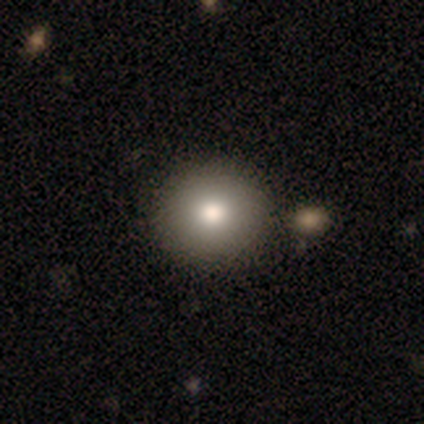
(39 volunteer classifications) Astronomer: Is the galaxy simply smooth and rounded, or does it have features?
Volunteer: smooth — 85%.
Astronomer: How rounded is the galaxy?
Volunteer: round — 91%.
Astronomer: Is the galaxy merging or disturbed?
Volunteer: none — 50%.